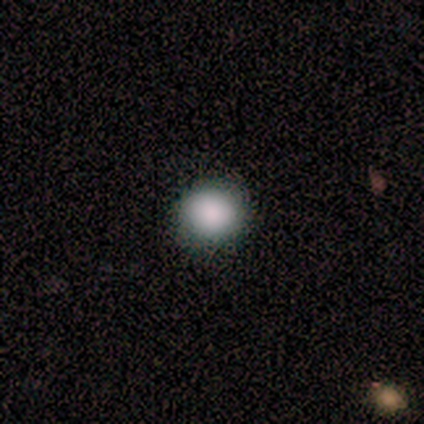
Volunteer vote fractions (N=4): Overall: smooth (100%). How rounded: round (100%). Merging: none (50%, tied with minor disturbance).